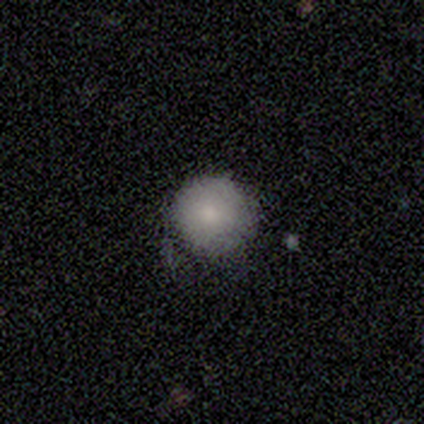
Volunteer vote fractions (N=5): This appears to be a smooth galaxy with no disk features (80%) that is round (100%). Merging: none (60%).